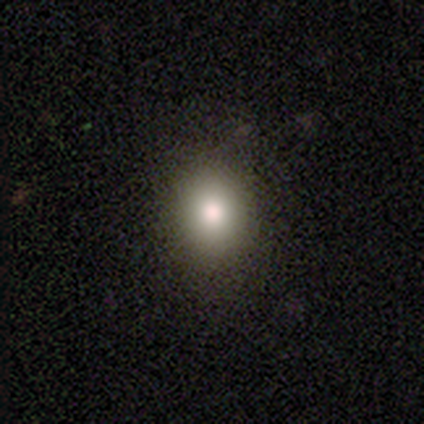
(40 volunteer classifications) Smooth or featured?
  - smooth: 68% *
  - featured or disk: 22%
  - star or artifact: 10%
How rounded?
  - round: 56% *
  - in between: 44%
  - cigar-shaped: 0%
Merging?
  - none: 83% *
  - minor disturbance: 17%
  - major disturbance: 0%
  - merger: 0%